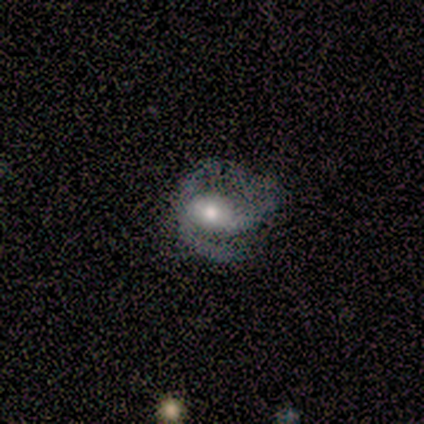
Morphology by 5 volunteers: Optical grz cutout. It shows a featured or disk galaxy (80%) with a weak bar (50%, tied with no), 1 (25%, tied with 2, 3 and can't tell) medium (50%) spiral arms (100%) and a large central bulge (50%). Merging: minor disturbance (40%, tied with major disturbance).